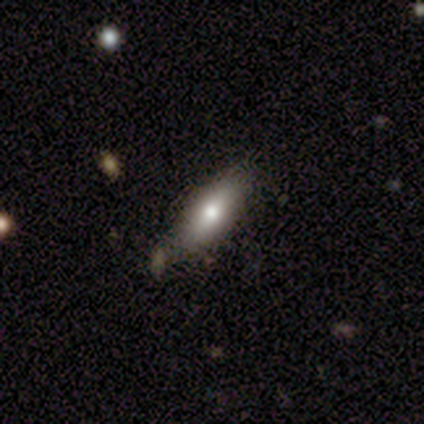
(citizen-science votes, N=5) smooth_or_featured: smooth (p=0.80) [alt: featured or disk p=0.20]
how_rounded: in between (p=1.00)
merging: none (p=0.80) [alt: minor disturbance p=0.20]